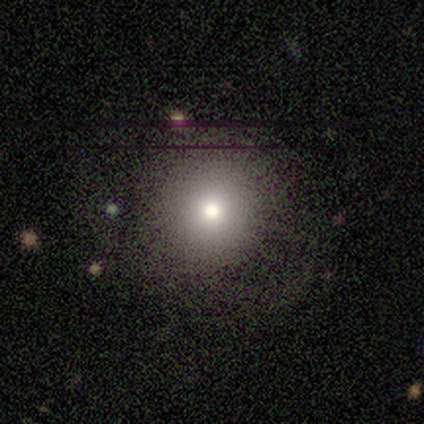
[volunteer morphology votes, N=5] Q: Smooth or featured?
A: smooth (60%); runner-up: featured or disk (40%)
Q: How rounded?
A: round (100%)
Q: Merging?
A: none (80%); runner-up: minor disturbance (20%)